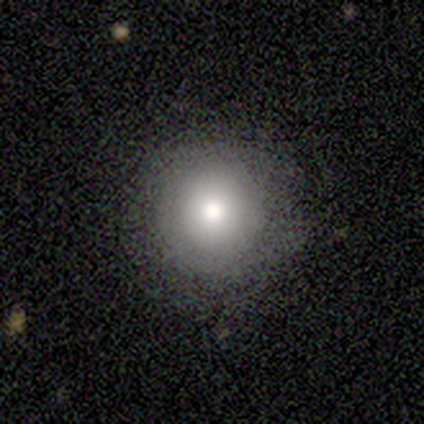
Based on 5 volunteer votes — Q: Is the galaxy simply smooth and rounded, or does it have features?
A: smooth — 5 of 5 (100%).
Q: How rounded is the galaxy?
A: round — 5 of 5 (100%).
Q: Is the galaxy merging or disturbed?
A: none — 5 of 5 (100%).